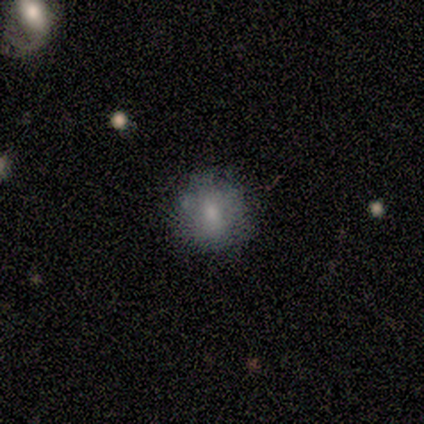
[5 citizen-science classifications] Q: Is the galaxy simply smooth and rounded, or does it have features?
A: smooth — 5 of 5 (100%).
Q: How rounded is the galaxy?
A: round — 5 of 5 (100%).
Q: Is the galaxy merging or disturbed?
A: none — 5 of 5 (100%).